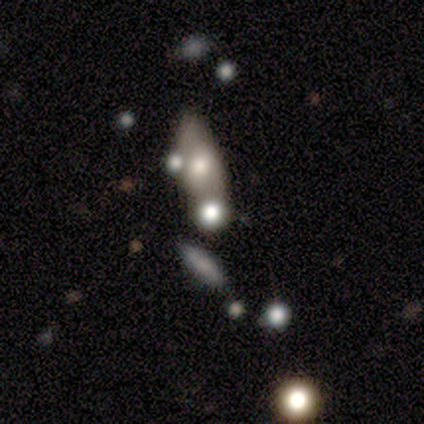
Smooth or featured? smooth (60%)
How rounded? round (33%, tied with in between and cigar-shaped)
Merging? merger (80%)